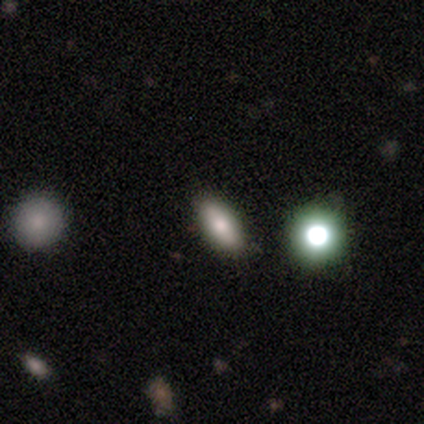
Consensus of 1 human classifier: Smooth or featured?
  - smooth: 100% *
  - featured or disk: 0%
  - star or artifact: 0%
How rounded?
  - in between: 100% *
  - round: 0%
  - cigar-shaped: 0%
Merging?
  - none: 100% *
  - minor disturbance: 0%
  - major disturbance: 0%
  - merger: 0%